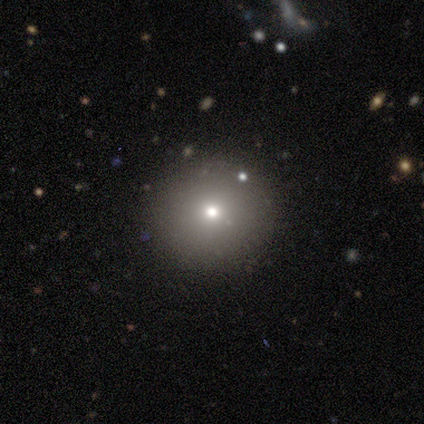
Smooth or featured? smooth (100%)
How rounded? round (100%)
Merging? none (100%)